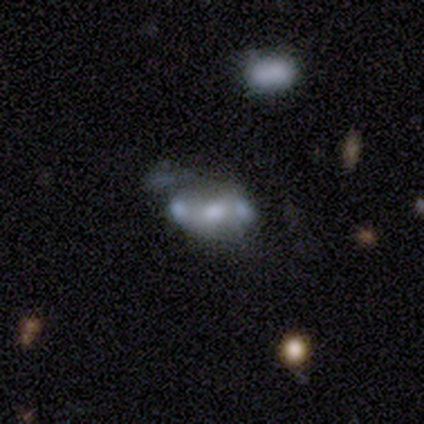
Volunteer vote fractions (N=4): Q: Smooth or featured?
A: featured or disk (100%)
Q: Edge-on disk?
A: no (100%)
Q: Bar?
A: no (75%); runner-up: weak (25%)
Q: Spiral arms?
A: no (75%); runner-up: yes (25%)
Q: Bulge size?
A: moderate (50%); tied with: small (50%)
Q: Merging?
A: minor disturbance (50%); runner-up: none (25%)